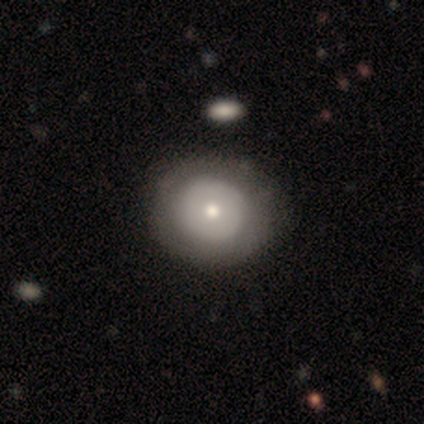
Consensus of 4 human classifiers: Overall: smooth (50%, tied with featured or disk). How rounded: round (50%, tied with cigar-shaped). Merging: none (50%; minor disturbance 25%).